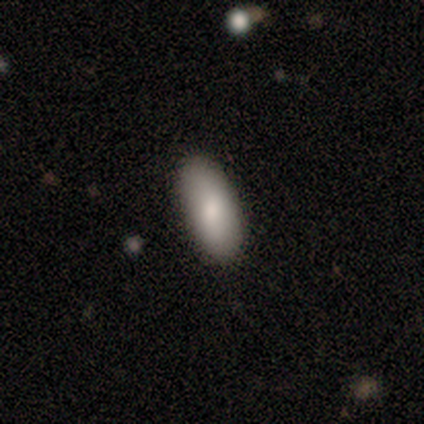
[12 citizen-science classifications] smooth 75%, featured or disk 25%, star or artifact 0%. Down the decision tree: how rounded — in between (78%); merging — none (92%).